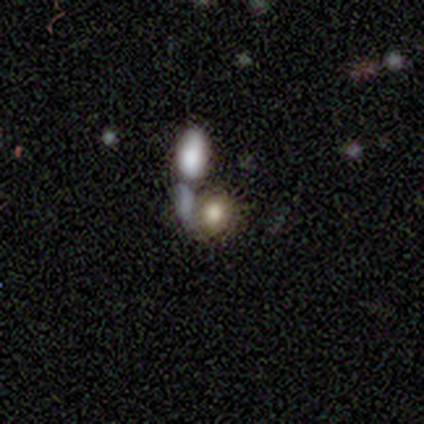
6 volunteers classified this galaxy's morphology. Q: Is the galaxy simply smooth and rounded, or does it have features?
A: smooth — 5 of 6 (83%).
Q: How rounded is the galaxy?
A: round — 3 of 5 (60%).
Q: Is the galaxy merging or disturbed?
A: none — 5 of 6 (83%).